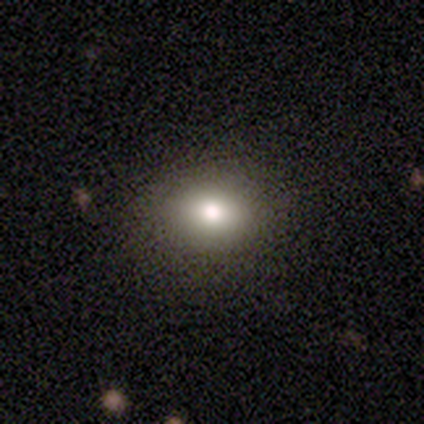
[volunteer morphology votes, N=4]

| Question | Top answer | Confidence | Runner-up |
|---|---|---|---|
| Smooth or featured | smooth | 100% | — |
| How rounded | round | 75% | in between (25%) |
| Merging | none | 75% | minor disturbance (25%) |